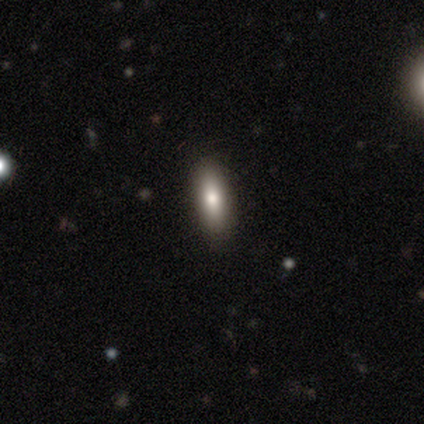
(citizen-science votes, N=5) Q: Smooth or featured?
A: smooth (100%)
Q: How rounded?
A: in between (60%); runner-up: cigar-shaped (40%)
Q: Merging?
A: none (80%); runner-up: minor disturbance (20%)